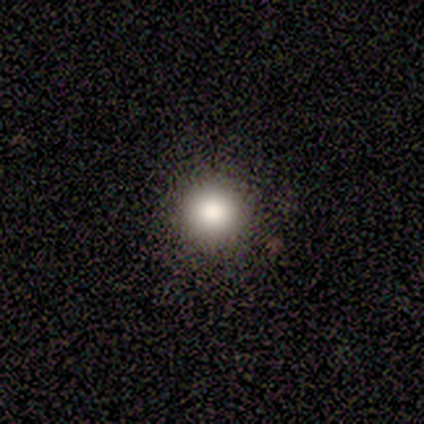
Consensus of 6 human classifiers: smooth-or-featured: smooth: 83% | featured or disk: 17% | star or artifact: 0%
  how-rounded: round: 100% | in between: 0% | cigar-shaped: 0%
  merging: none: 100% | minor disturbance: 0% | major disturbance: 0% | merger: 0%